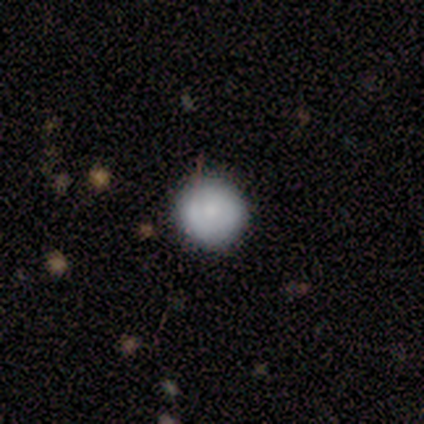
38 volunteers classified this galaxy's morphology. Q: Smooth or featured?
A: smooth (82%); runner-up: featured or disk (13%)
Q: How rounded?
A: round (97%); runner-up: in between (3%)
Q: Merging?
A: none (83%); runner-up: minor disturbance (8%)